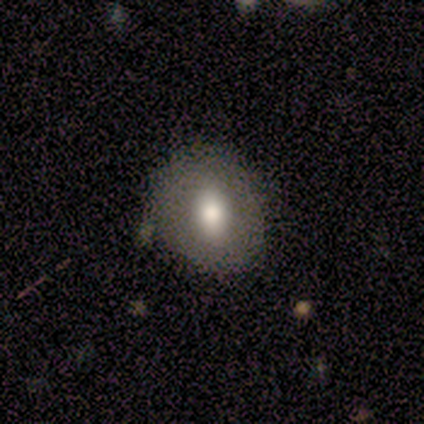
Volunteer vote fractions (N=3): Volunteers were most divided on "smooth or featured" (3-way tie): smooth: 33%, featured or disk: 33%, star or artifact: 33%. More confident: how rounded — in between (100%); merging — minor disturbance (100%).